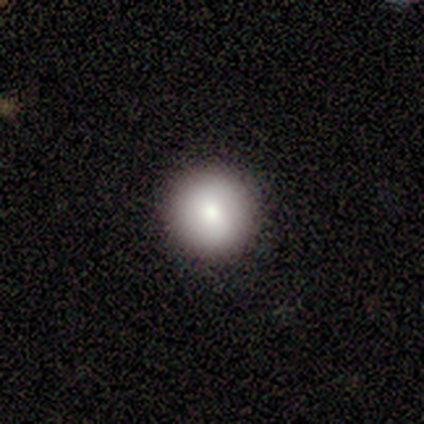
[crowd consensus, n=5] Q: Smooth or featured?
A: smooth (60%); runner-up: featured or disk (20%)
Q: How rounded?
A: round (67%); runner-up: cigar-shaped (33%)
Q: Merging?
A: none (75%); runner-up: minor disturbance (25%)